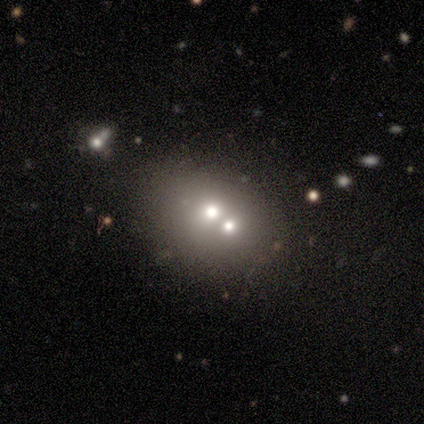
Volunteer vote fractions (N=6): Smooth or featured?
  - smooth: 50% * (tied)
  - star or artifact: 50% * (tied)
  - featured or disk: 0%
How rounded?
  - in between: 100% *
  - round: 0%
  - cigar-shaped: 0%
Merging?
  - none: 67% *
  - merger: 33%
  - minor disturbance: 0%
  - major disturbance: 0%